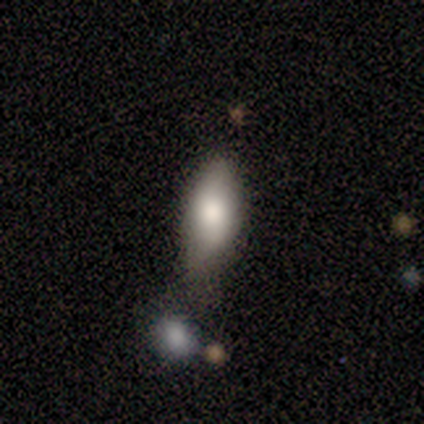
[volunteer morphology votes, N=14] Smooth or featured?
  - smooth: 86% *
  - featured or disk: 7%
  - star or artifact: 7%
How rounded?
  - in between: 92% *
  - cigar-shaped: 8%
  - round: 0%
Merging?
  - none: 46% *
  - minor disturbance: 38%
  - major disturbance: 8%
  - merger: 8%